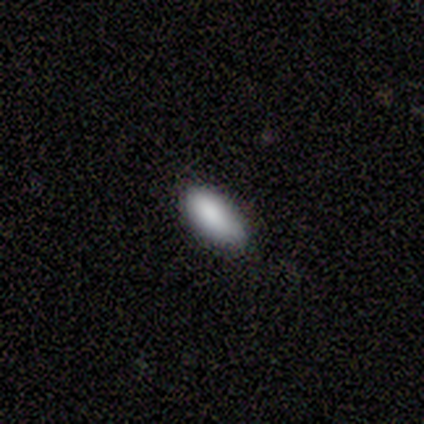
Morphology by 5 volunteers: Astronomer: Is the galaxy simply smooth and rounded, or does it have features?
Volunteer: smooth — 80%.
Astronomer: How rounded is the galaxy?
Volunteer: in between — 100%.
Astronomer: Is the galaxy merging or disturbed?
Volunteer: none — 60% (runner-up: minor disturbance, 40%).